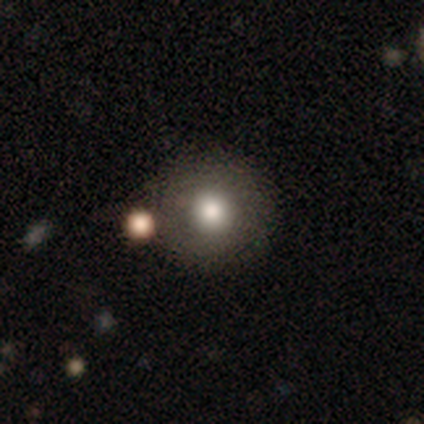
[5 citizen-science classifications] This appears to be a featured or disk galaxy (60%) with no bar (100%), no spiral arms (100%) and a large central bulge (50%, tied with moderate). Merging: none (80%).